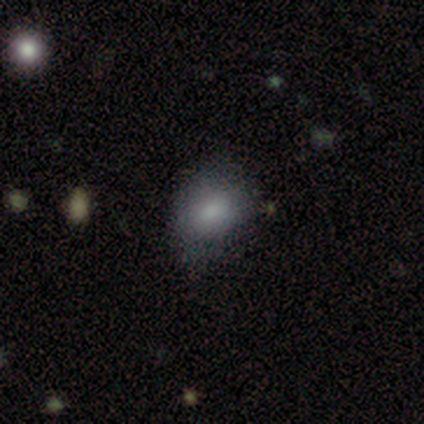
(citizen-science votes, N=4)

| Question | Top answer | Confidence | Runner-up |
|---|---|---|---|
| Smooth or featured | smooth | 100% | — |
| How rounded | in between | 75% | round (25%) |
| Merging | minor disturbance | 75% | none (25%) |